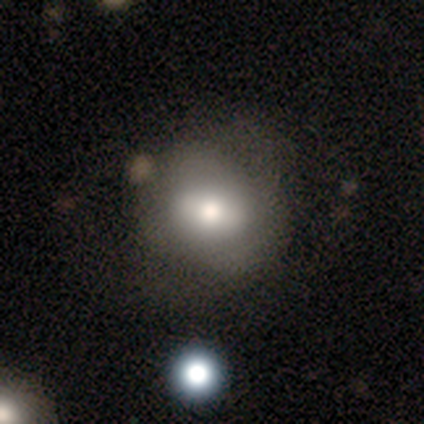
Volunteers were most divided on "smooth or featured": smooth: 60%, featured or disk: 30%, star or artifact: 10%. More confident: how rounded — round (80%); merging — none (60%).